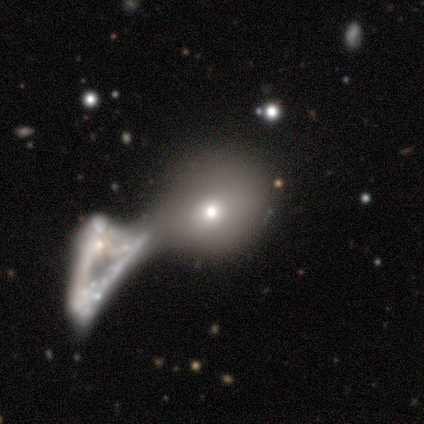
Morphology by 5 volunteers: Smooth or featured? smooth (100%)
How rounded? round (80%)
Merging? merger (80%)